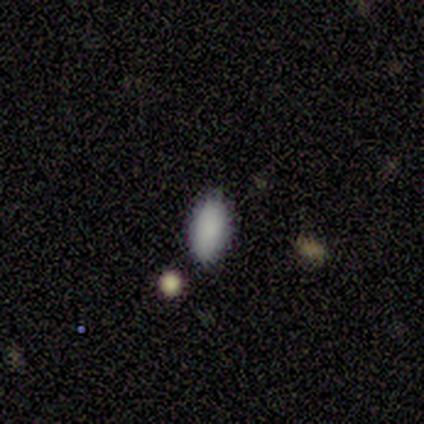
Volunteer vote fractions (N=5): Volunteers were most divided on "merging": none: 60%, merger: 40%, minor disturbance: 0%, major disturbance: 0%. More confident: smooth or featured — smooth (100%); how rounded — in between (100%).